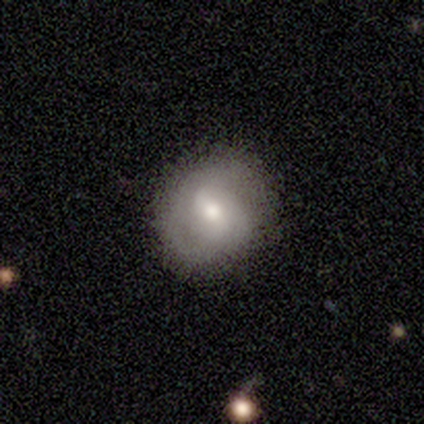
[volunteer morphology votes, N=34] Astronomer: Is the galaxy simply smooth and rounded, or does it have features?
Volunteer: smooth — 41% (runner-up: featured or disk, 38%).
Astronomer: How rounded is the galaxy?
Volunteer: round — 93%.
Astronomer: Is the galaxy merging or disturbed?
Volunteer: none — 85%.